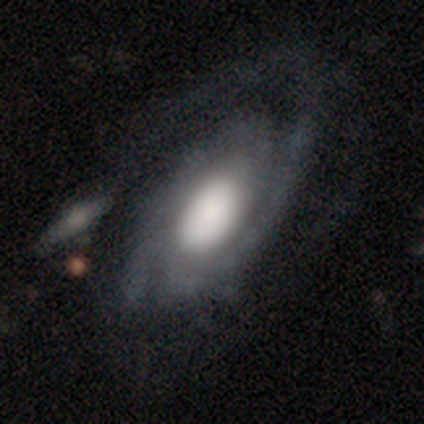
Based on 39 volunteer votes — Smooth or featured? featured or disk (85%)
Edge-on disk? no (91%)
Bar? no (87%)
Spiral arms? yes (97%)
Spiral winding? tight (62%)
Spiral arm count? 2 (48%)
Bulge size? large (70%)
Merging? none (50%)